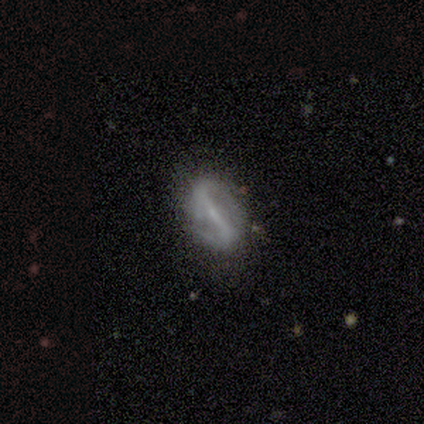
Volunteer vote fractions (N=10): This is clearly a featured or disk galaxy (80%). It is clearly not viewed edge-on (100%). Bar: likely strong (75%). Spiral arm pattern: clearly yes (88%). Spiral arm count: likely 2 (71%). Spiral winding: marginally tight (43%, tied with medium). Central bulge: likely small (62%). Merging: clearly none (89%).